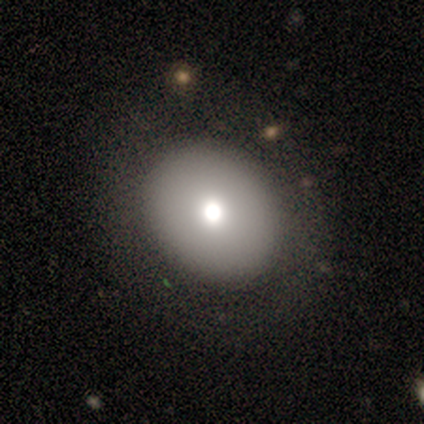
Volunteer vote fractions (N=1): Consensus on every question: smooth or featured — smooth (100%); how rounded — round (100%); merging — major disturbance (100%).